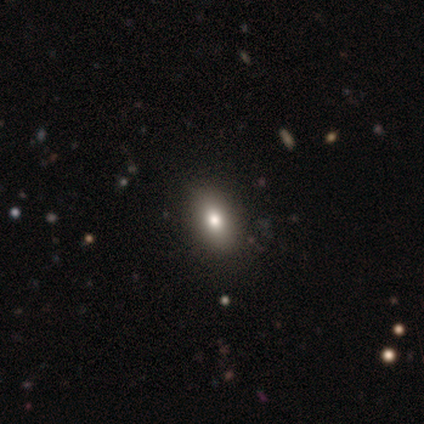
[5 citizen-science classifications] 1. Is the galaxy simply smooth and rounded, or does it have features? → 60% smooth, 40% star or artifact, 0% featured or disk.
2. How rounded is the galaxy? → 67% in between, 33% cigar-shaped, 0% round.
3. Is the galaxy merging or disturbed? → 100% none, 0% minor disturbance, 0% major disturbance, 0% merger.